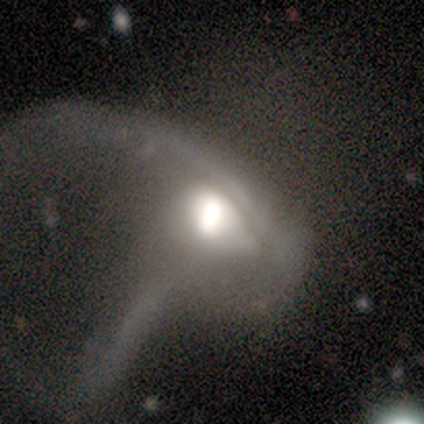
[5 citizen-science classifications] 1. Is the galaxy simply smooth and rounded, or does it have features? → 80% featured or disk, 20% star or artifact, 0% smooth.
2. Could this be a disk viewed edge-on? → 75% no, 25% yes.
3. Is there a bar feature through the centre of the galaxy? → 100% no, 0% strong, 0% weak.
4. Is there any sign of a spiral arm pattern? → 67% yes, 33% no.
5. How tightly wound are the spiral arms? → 50% tight (tied), 50% medium (tied), 0% loose.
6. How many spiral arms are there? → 50% 1 (tied), 50% can't tell (tied), 0% 2, 0% 3, 0% 4, 0% more than 4.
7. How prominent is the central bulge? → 67% moderate, 33% large, 0% dominant, 0% small, 0% none.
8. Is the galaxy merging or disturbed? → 100% major disturbance, 0% none, 0% minor disturbance, 0% merger.